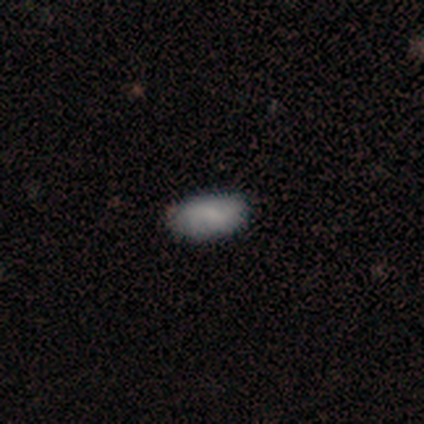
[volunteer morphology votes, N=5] smooth_or_featured: smooth (p=0.80) [alt: star or artifact p=0.20]
how_rounded: in between (p=1.00)
merging: none (p=1.00)